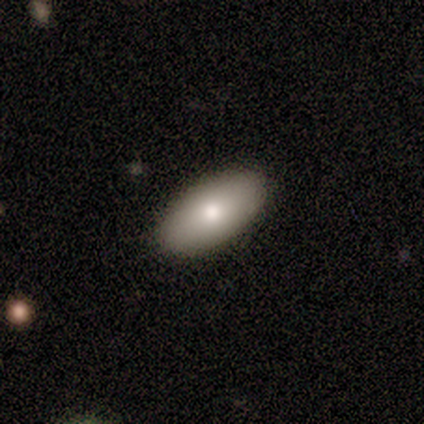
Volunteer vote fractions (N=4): This is clearly a smooth galaxy (100%). How rounded: clearly in between (100%). Merging: clearly none (100%).